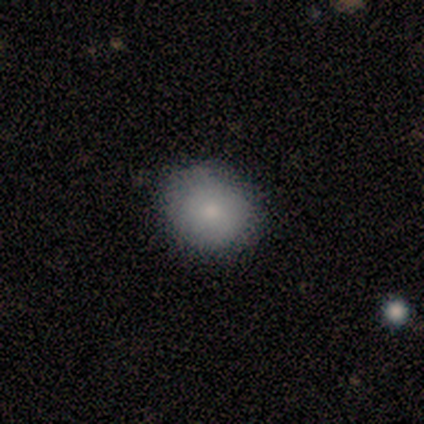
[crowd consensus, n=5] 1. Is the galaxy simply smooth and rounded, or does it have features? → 100% smooth, 0% featured or disk, 0% star or artifact.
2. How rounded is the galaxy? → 80% round, 20% in between, 0% cigar-shaped.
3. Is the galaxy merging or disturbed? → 80% none, 20% minor disturbance, 0% major disturbance, 0% merger.